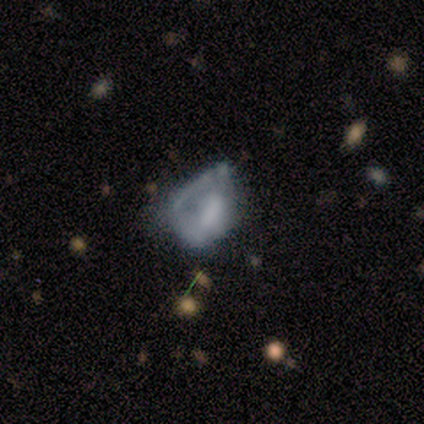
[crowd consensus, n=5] Smooth or featured? smooth (60%)
How rounded? round (67%)
Merging? major disturbance (80%)